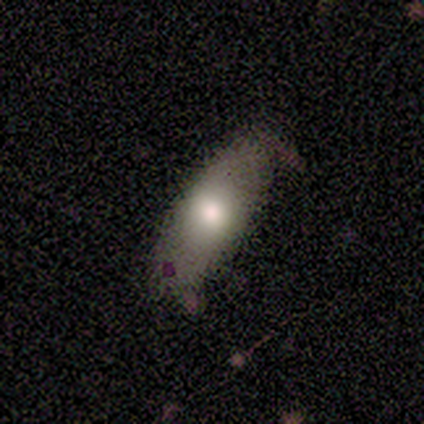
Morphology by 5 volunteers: smooth 60%, featured or disk 20%, star or artifact 20%. Down the decision tree: how rounded — in between (67%); merging — none (50%, tied with minor disturbance).